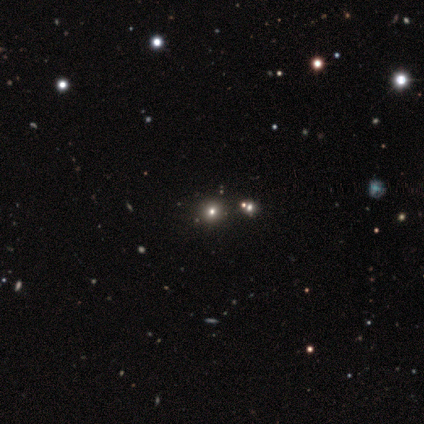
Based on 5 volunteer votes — A featured or disk galaxy (40%, tied with star or artifact) with no bar (100%), no spiral arms (100%) and a large central bulge (50%, tied with moderate).

Vote fractions:
- Smooth or featured? featured or disk: 40% (tied) / star or artifact: 40% (tied) / smooth: 20%
- Edge-on disk? no: 100% / yes: 0%
- Bar? no: 100% / strong: 0% / weak: 0%
- Spiral arms? no: 100% / yes: 0%
- Bulge size? large: 50% (tied) / moderate: 50% (tied) / dominant: 0% / small: 0% / none: 0%
- Merging? none: 100% / minor disturbance: 0% / major disturbance: 0% / merger: 0%